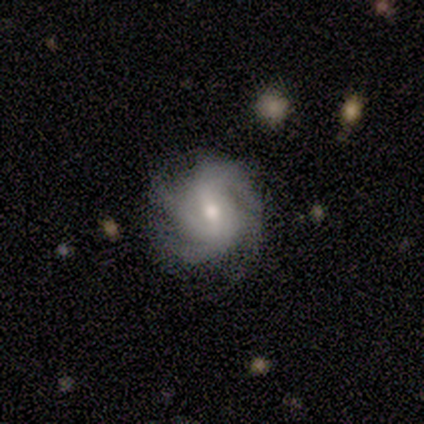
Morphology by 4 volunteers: This appears to be a featured or disk galaxy (75%) with a weak bar (100%), tight (67%) spiral arms (100%) and a moderate central bulge (67%). Merging: none (67%).